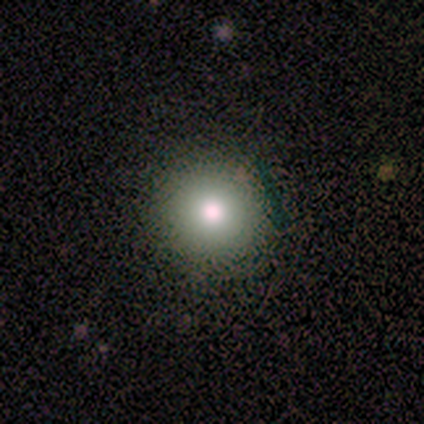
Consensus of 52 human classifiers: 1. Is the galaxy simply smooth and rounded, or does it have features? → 79% smooth, 19% featured or disk, 2% star or artifact.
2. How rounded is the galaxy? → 100% round, 0% in between, 0% cigar-shaped.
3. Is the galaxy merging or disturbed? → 94% none, 4% major disturbance, 2% minor disturbance, 0% merger.